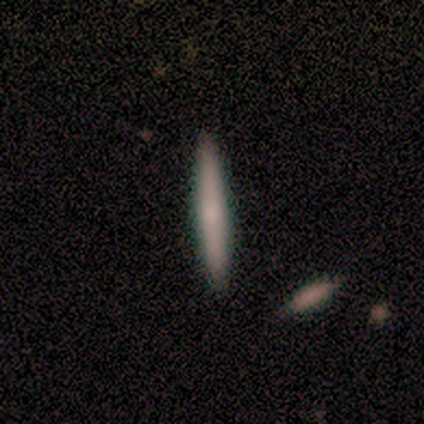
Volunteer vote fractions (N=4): A smooth galaxy with no disk features (75%) that is cigar-shaped (100%).

Vote fractions:
- Smooth or featured? smooth: 75% / featured or disk: 25% / star or artifact: 0%
- How rounded? cigar-shaped: 100% / round: 0% / in between: 0%
- Merging? none: 100% / minor disturbance: 0% / major disturbance: 0% / merger: 0%